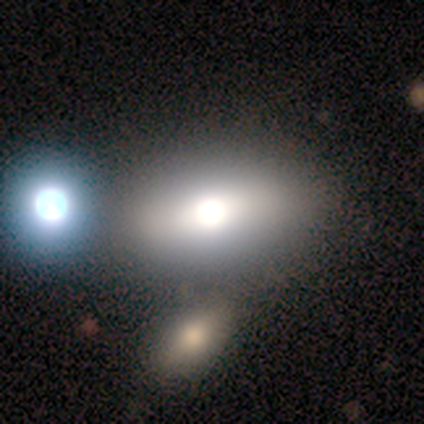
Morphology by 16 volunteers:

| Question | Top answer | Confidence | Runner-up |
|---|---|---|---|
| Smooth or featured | smooth | 75% | featured or disk (19%) |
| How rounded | in between | 75% | round (17%) |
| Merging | merger | 33% | none (20%) |